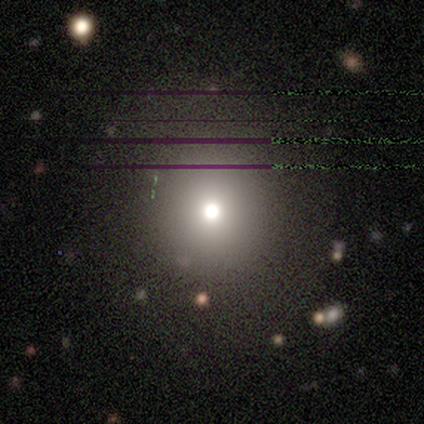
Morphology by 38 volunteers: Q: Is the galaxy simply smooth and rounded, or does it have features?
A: smooth — 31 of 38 (82%).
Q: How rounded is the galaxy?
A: round — 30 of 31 (97%).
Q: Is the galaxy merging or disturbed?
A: none — 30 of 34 (88%).